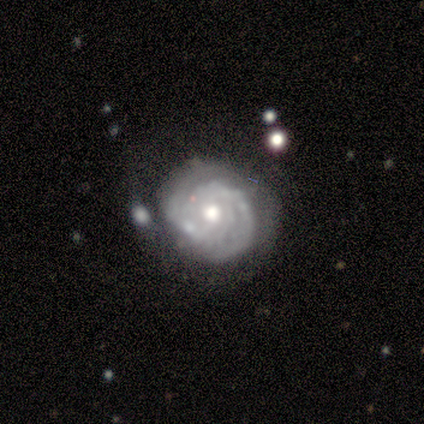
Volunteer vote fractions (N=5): Q: Smooth or featured?
A: featured or disk (80%); runner-up: smooth (20%)
Q: Edge-on disk?
A: no (100%)
Q: Bar?
A: weak (50%); tied with: no (50%)
Q: Spiral arms?
A: yes (100%)
Q: Spiral winding?
A: tight (75%); runner-up: medium (25%)
Q: Spiral arm count?
A: 2 (75%); runner-up: 3 (25%)
Q: Bulge size?
A: moderate (100%)
Q: Merging?
A: none (40%); tied with: merger (40%)